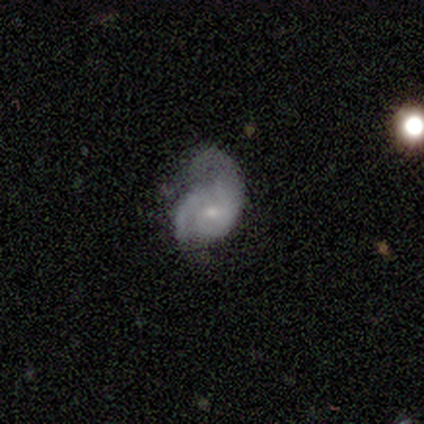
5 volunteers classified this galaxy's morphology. Smooth or featured? 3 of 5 (60%) said featured or disk. Edge-on disk? 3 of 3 (100%) said no. Bar? 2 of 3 (67%) said no. Spiral arms? 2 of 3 (67%) said yes. Spiral winding? 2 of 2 (100%) said loose. Spiral arm count? 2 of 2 (100%) said 2. Bulge size? 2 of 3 (67%) said small. Merging? 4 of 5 (80%) said major disturbance.